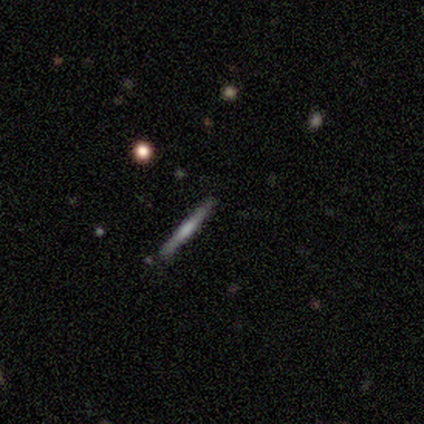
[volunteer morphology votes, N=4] This appears to be a featured or disk galaxy (50%) viewed edge-on (100%) with a boxy central bulge (50%, tied with rounded). Merging: none (100%).